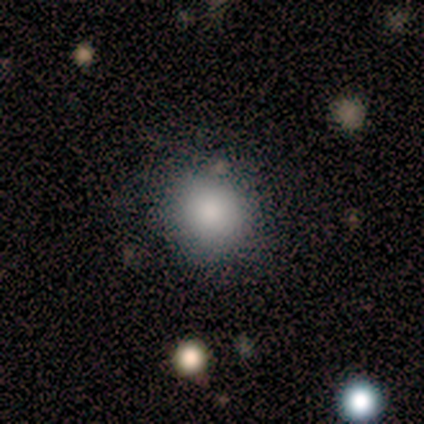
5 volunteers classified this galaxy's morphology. Smooth or featured? 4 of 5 (80%) said smooth. How rounded? 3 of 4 (75%) said round. Merging? 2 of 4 (50%) said none.